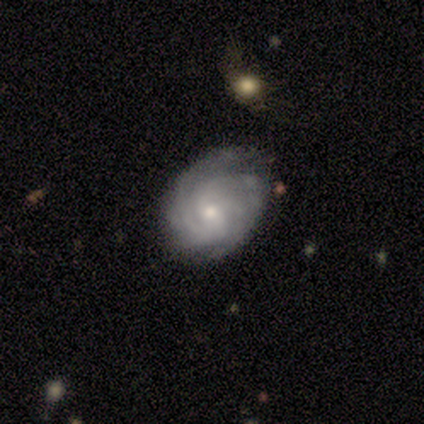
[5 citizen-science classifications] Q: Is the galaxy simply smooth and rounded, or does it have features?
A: featured or disk — 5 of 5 (100%).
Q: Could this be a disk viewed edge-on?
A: no — 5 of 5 (100%).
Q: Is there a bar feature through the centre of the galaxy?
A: no — 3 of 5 (60%).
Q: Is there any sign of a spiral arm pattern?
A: yes — 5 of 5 (100%).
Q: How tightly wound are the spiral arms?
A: tight — 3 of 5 (60%).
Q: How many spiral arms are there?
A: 2 — 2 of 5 (40%, tied with can't tell).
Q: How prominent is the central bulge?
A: small — 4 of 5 (80%).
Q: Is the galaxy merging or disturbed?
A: none — 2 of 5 (40%, tied with minor disturbance).